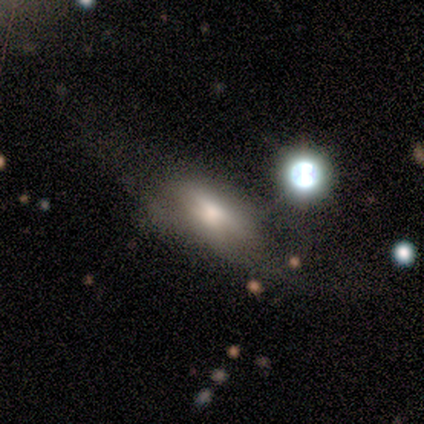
Morphology: type=featured or disk (57%); edge-on=no (60%); bar=no (92%); spiral arms=no (75%); bulge=moderate (50%); merging=none (40%, tied with major disturbance).